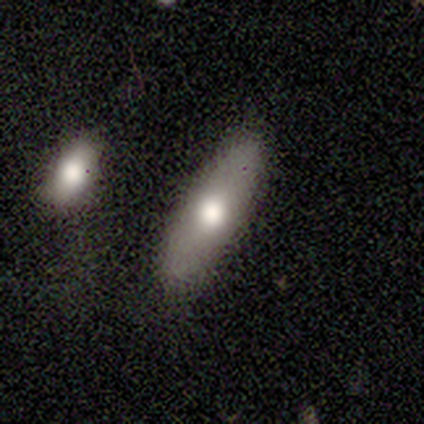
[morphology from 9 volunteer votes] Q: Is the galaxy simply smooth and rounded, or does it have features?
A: smooth — 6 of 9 (67%).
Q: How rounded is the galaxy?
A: in between — 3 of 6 (50%, tied with cigar-shaped).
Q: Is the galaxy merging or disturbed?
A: none — 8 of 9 (89%).